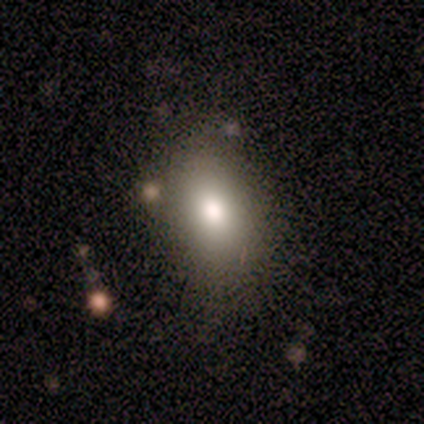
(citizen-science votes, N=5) This is clearly a smooth galaxy (100%). How rounded: clearly in between (80%). Merging: clearly none (100%).